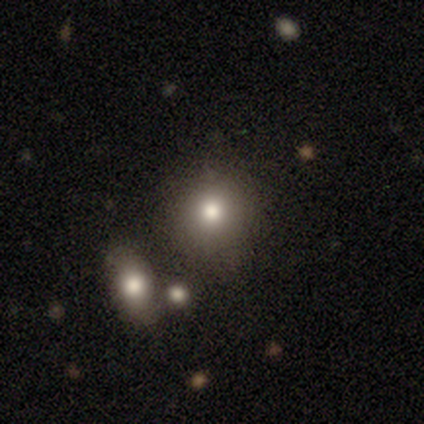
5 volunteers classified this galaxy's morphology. Q: Smooth or featured?
A: smooth (100%)
Q: How rounded?
A: round (100%)
Q: Merging?
A: none (100%)